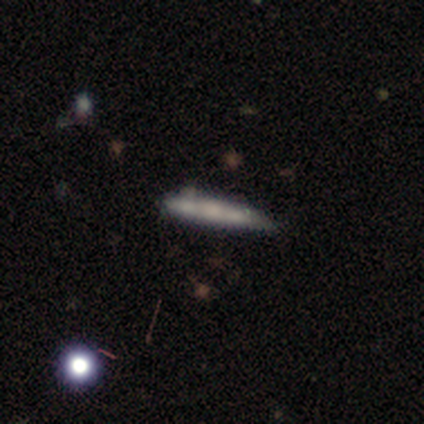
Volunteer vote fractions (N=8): smooth 38% (tied), featured or disk 38% (tied), star or artifact 25%. Down the decision tree: how rounded — cigar-shaped (100%); merging — none (83%).